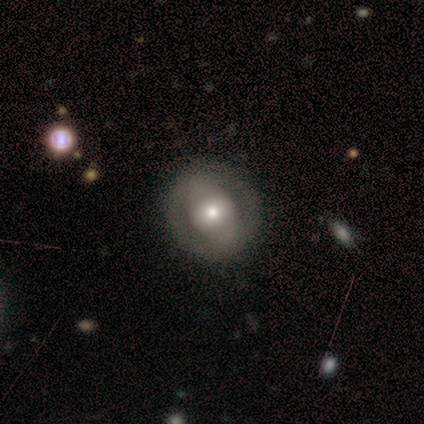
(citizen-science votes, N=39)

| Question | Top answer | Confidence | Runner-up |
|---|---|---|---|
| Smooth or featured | smooth | 49% | featured or disk (41%) |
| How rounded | round | 79% | in between (21%) |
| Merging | none | 80% | minor disturbance (14%) |